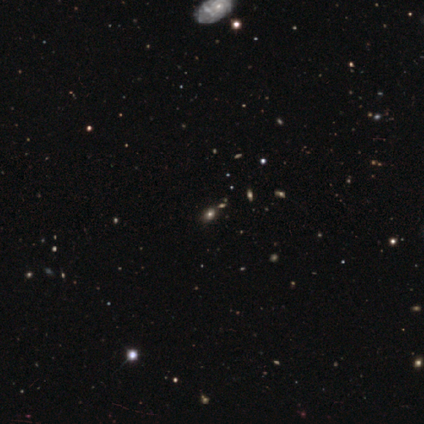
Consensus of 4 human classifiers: Volunteers were most divided on "how rounded": in between: 67%, round: 33%, cigar-shaped: 0%. More confident: merging — none (100%); smooth or featured — smooth (75%).